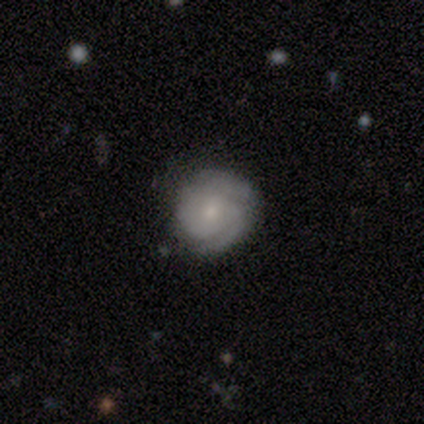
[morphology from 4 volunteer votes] This is clearly a featured or disk galaxy (100%). It is clearly not viewed edge-on (100%). Bar: possibly weak (50%, tied with no). Spiral arm pattern: clearly yes (100%). Spiral arm count: likely 2 (75%). Spiral winding: likely tight (75%). Central bulge: likely small (75%). Merging: clearly none (100%).